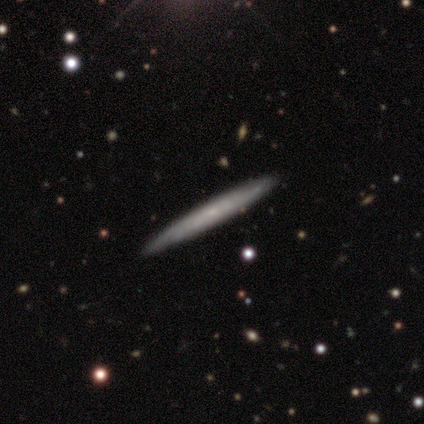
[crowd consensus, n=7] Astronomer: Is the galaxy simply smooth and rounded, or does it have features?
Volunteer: featured or disk — 57% (runner-up: smooth, 43%).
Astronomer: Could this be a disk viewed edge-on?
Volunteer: yes — 75%.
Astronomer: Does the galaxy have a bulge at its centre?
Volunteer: none — 100%.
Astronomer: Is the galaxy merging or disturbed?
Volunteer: none — 100%.